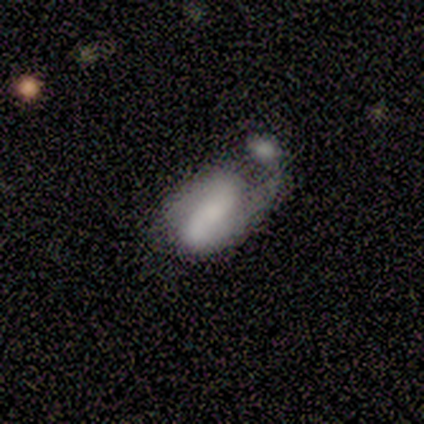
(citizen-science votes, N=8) Overall: smooth (50%, tied with featured or disk). How rounded: in between (100%). Merging: merger (88%).